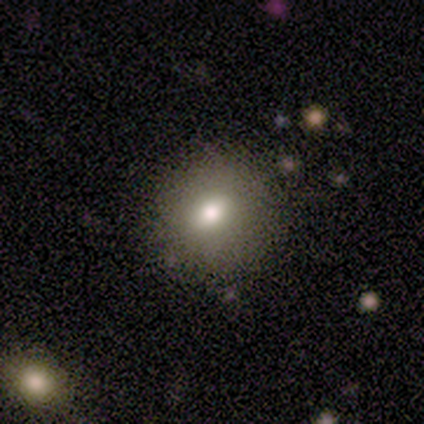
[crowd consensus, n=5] This appears to be a smooth galaxy with no disk features (80%) that is round (75%). Merging: none (80%).